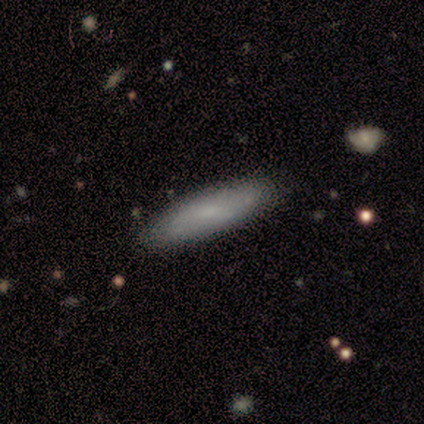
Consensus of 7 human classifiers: Volunteers were most divided on "how rounded": cigar-shaped: 60%, in between: 40%, round: 0%. More confident: merging — none (100%); smooth or featured — smooth (71%).